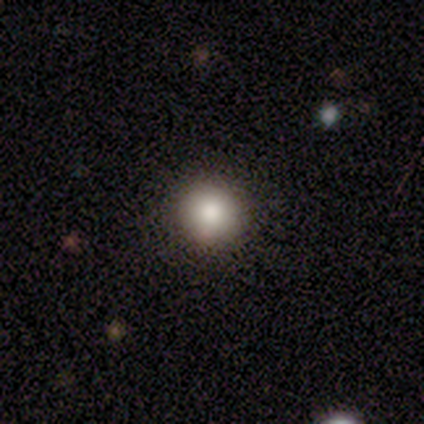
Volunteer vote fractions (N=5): Smooth or featured: smooth — 100%
How rounded: round — 80% (in between — 20%)
Merging: none — 100%